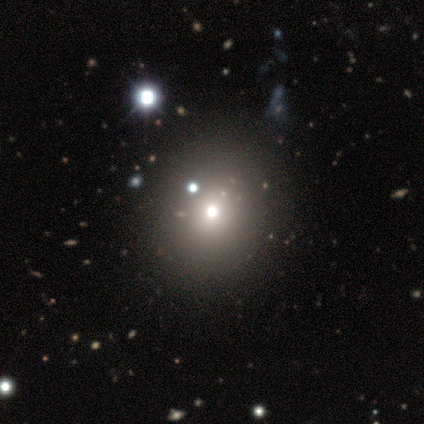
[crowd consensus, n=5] Smooth or featured? 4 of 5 (80%) said smooth. How rounded? 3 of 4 (75%) said round. Merging? 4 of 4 (100%) said none.